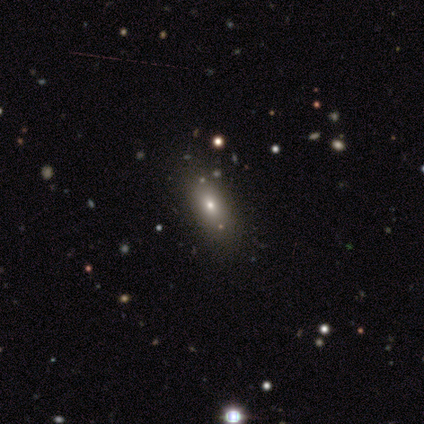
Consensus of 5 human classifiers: A smooth galaxy with no disk features (80%) that is in between round and cigar-shaped (75%). Merging: none (75%).